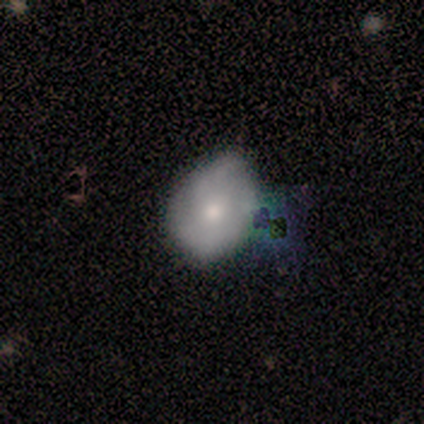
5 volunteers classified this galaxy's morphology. A smooth galaxy with no disk features (60%) that is round (67%).

Vote fractions:
- Smooth or featured? smooth: 60% / featured or disk: 40% / star or artifact: 0%
- How rounded? round: 67% / in between: 33% / cigar-shaped: 0%
- Merging? none: 60% / minor disturbance: 20% / merger: 20% / major disturbance: 0%